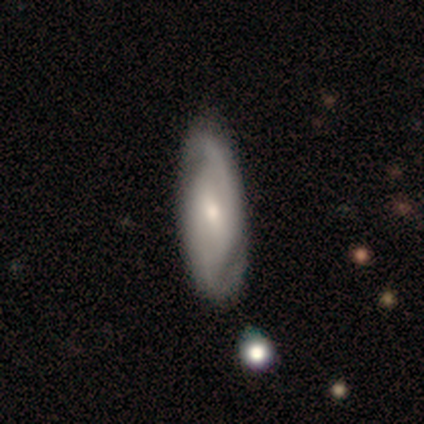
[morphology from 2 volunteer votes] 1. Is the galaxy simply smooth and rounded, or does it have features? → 50% smooth (tied), 50% featured or disk (tied), 0% star or artifact.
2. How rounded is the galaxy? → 100% in between, 0% round, 0% cigar-shaped.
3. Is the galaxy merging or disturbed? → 100% none, 0% minor disturbance, 0% major disturbance, 0% merger.